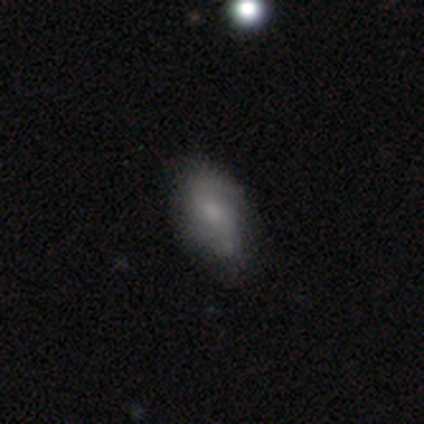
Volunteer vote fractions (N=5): Volunteers were most divided on "spiral winding" (2-way tie): medium: 50%, loose: 50%, tight: 0%; "bulge size" (3-way tie): large: 33%, moderate: 33%, small: 33%, dominant: 0%, none: 0%. More confident: edge-on disk — no (100%); spiral arm count — 2 (100%); merging — none (100%); bar — weak (67%); spiral arms — yes (67%); smooth or featured — featured or disk (60%).